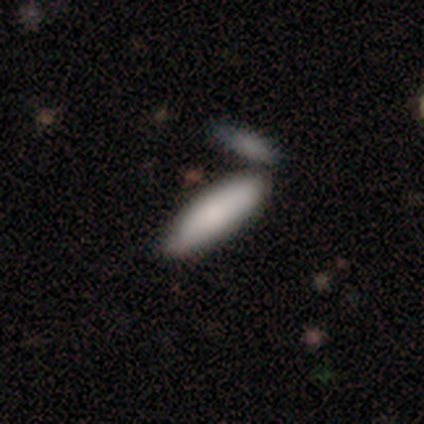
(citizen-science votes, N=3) Smooth or featured? 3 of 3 (100%) said smooth. How rounded? 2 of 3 (67%) said cigar-shaped. Merging? 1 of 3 (33%, tied with minor disturbance and merger) said none.